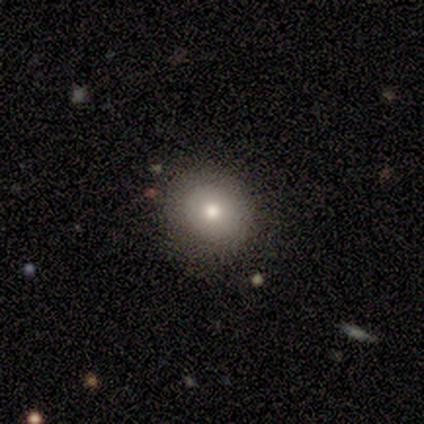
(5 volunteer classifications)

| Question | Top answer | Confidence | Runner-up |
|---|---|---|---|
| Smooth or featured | smooth | 40% | tied: featured or disk (40%) |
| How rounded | round | 100% | — |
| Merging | none | 100% | — |